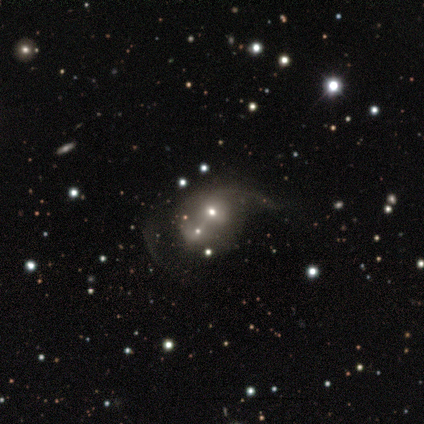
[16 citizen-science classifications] A smooth galaxy with no disk features (44%, tied with featured or disk) that is round (86%).

Vote fractions:
- Smooth or featured? smooth: 44% (tied) / featured or disk: 44% (tied) / star or artifact: 12%
- How rounded? round: 86% / in between: 14% / cigar-shaped: 0%
- Merging? merger: 43% / major disturbance: 36% / none: 14% / minor disturbance: 7%